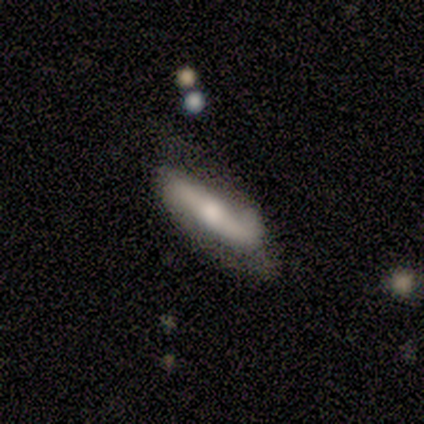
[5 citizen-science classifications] featured or disk 80%, smooth 20%, star or artifact 0%. Down the decision tree: edge-on disk — no (100%); bar — strong (50%); spiral arms — yes (100%); spiral arm count — 2 (100%); spiral winding — loose (75%); bulge size — moderate (50%); merging — none (60%).